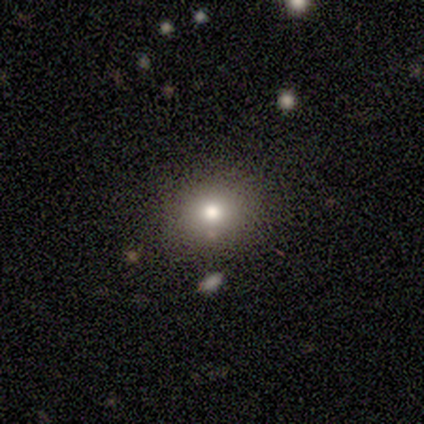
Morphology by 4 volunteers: A smooth galaxy with no disk features (75%) that is round (100%). Merging: none (100%).